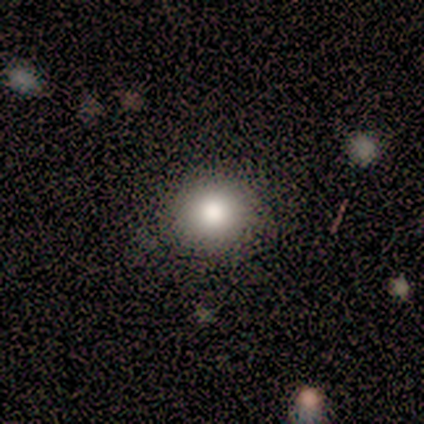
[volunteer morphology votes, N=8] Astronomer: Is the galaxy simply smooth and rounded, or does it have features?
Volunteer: smooth — 88%.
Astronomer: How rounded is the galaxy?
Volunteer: round — 100%.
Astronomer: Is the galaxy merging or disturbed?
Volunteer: none — 100%.